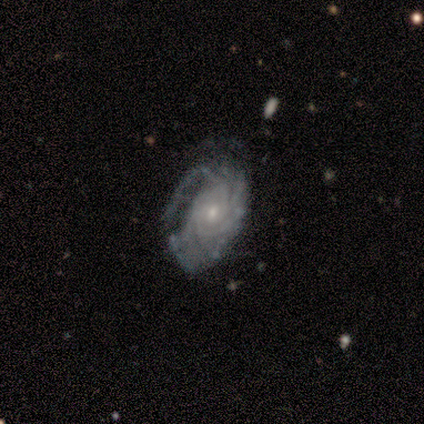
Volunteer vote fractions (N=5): Smooth or featured? featured or disk (100%)
Edge-on disk? no (100%)
Bar? weak (60%)
Spiral arms? yes (80%)
Spiral winding? tight (75%)
Spiral arm count? 4 (50%, tied with can't tell)
Bulge size? small (80%)
Merging? none (60%)